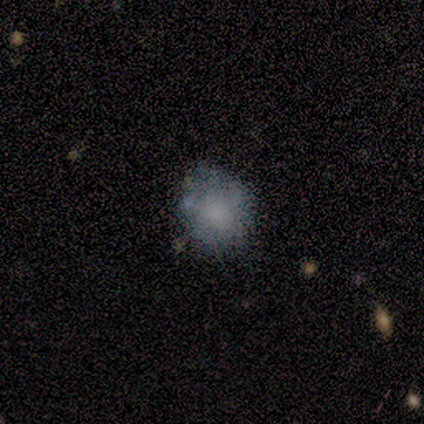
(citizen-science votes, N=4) Overall: smooth (100%). How rounded: round (75%). Merging: none (50%, tied with minor disturbance).